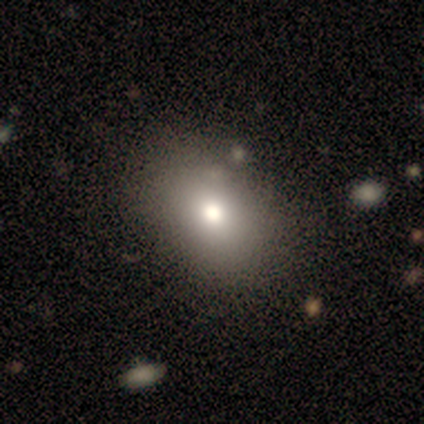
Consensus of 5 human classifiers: Q: Smooth or featured?
A: smooth (60%); runner-up: featured or disk (20%)
Q: How rounded?
A: in between (100%)
Q: Merging?
A: none (75%); runner-up: minor disturbance (25%)